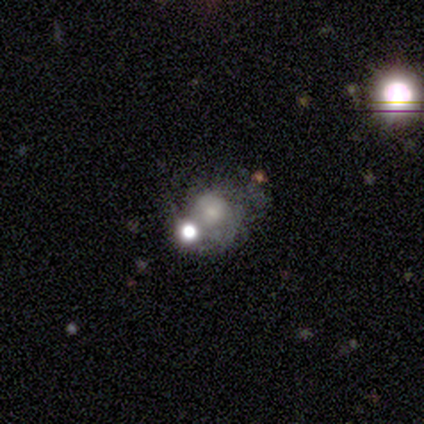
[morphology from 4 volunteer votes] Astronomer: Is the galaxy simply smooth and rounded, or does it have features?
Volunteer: smooth — 50%, tied with featured or disk at 50%.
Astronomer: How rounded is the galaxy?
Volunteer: round — 100%.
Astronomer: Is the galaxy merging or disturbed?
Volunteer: none — 75%.